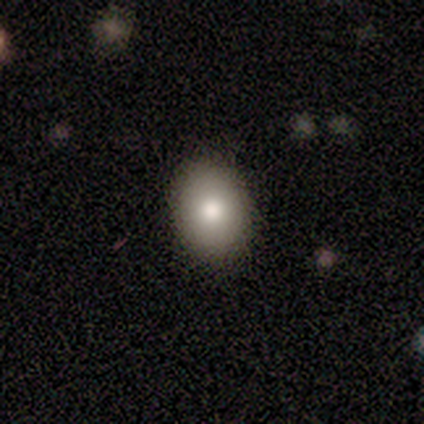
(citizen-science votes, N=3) Q: Smooth or featured?
A: smooth (67%); runner-up: star or artifact (33%)
Q: How rounded?
A: in between (100%)
Q: Merging?
A: none (100%)